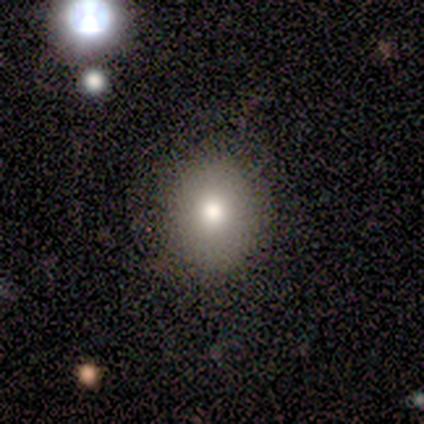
Morphology: type=smooth (93%); roundness=round (64%); merging=none (80%).